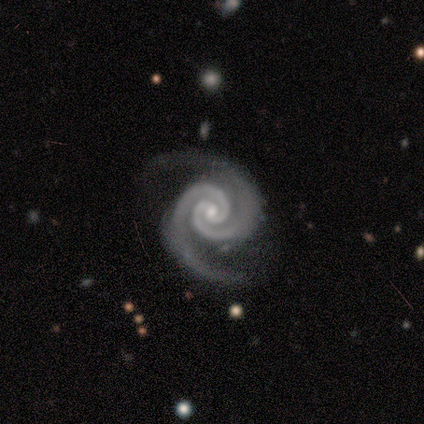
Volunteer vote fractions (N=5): A featured or disk galaxy (100%) with no bar (60%), 2 (100%) medium (60%) spiral arms (100%) and a small central bulge (80%). Merging: none (100%).